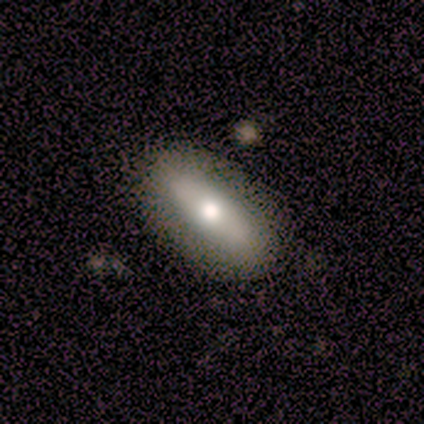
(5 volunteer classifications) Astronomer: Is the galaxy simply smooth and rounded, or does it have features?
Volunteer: featured or disk — 60% (runner-up: smooth, 40%).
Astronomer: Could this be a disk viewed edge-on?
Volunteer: yes — 67%.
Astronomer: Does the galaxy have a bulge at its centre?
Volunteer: none — 50%, tied with rounded at 50%.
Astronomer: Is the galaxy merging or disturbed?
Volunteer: none — 60%.